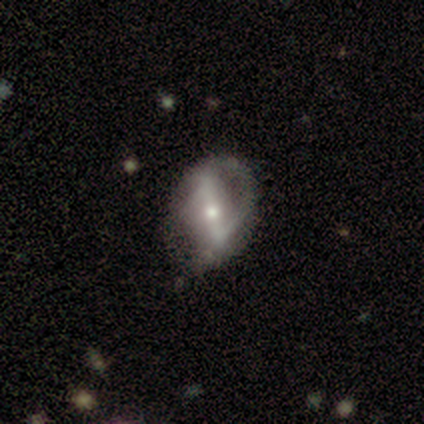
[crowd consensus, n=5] smooth-or-featured: featured or disk: 80% | smooth: 20% | star or artifact: 0%
  disk-edge-on: no: 100% | yes: 0%
    bar: strong: 100% | weak: 0% | no: 0%
    has-spiral-arms: yes: 75% | no: 25%
      spiral-winding: loose: 67% | medium: 33% | tight: 0%
      spiral-arm-count: 2: 100% | 1: 0% | 3: 0% | 4: 0% | more than 4: 0% | can't tell: 0%
    bulge-size: moderate: 50% (tied) | small: 50% (tied) | dominant: 0% | large: 0% | none: 0%
  merging: none: 80% | major disturbance: 20% | minor disturbance: 0% | merger: 0%